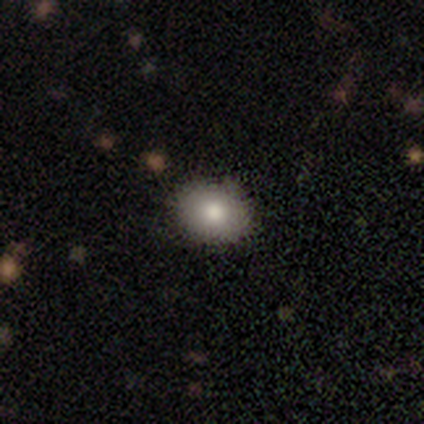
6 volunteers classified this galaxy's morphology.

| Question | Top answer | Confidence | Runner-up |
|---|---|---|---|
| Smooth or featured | smooth | 100% | — |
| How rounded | round | 50% | tied: in between (50%) |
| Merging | none | 83% | minor disturbance (17%) |